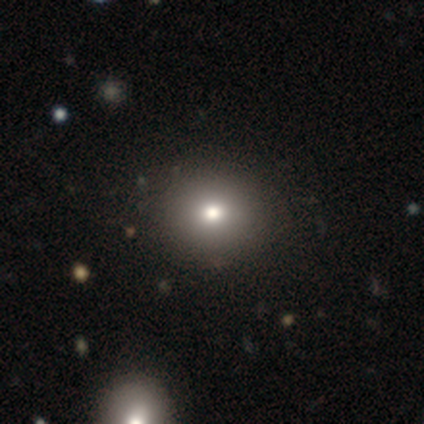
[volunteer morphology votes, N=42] A smooth galaxy with no disk features (76%) that is round (81%). Merging: none (91%).